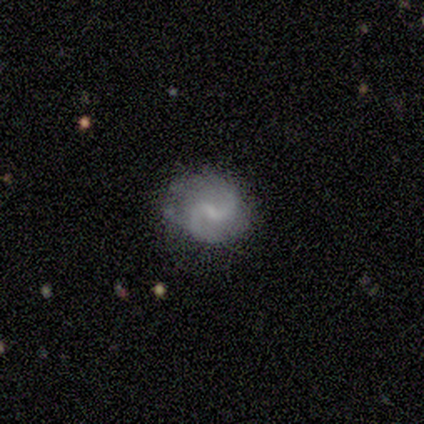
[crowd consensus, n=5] A featured or disk galaxy (100%) with a weak bar (100%), 2 (100%) loose (75%) spiral arms (100%) and a small central bulge (50%).

Vote fractions:
- Smooth or featured? featured or disk: 100% / smooth: 0% / star or artifact: 0%
- Edge-on disk? no: 80% / yes: 20%
- Bar? weak: 100% / strong: 0% / no: 0%
- Spiral arms? yes: 100% / no: 0%
- Spiral winding? loose: 75% / tight: 25% / medium: 0%
- Spiral arm count? 2: 100% / 1: 0% / 3: 0% / 4: 0% / more than 4: 0% / can't tell: 0%
- Bulge size? small: 50% / moderate: 25% / none: 25% / dominant: 0% / large: 0%
- Merging? none: 80% / major disturbance: 20% / minor disturbance: 0% / merger: 0%